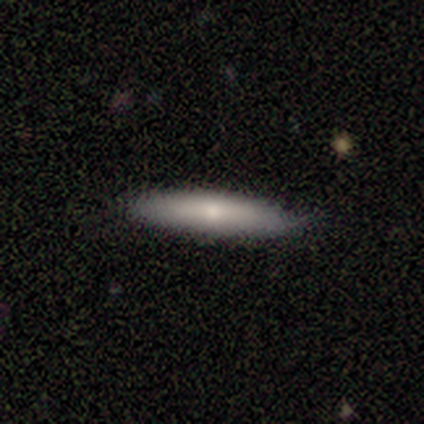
Morphology: type=smooth (56%); roundness=cigar-shaped (60%); merging=none (50%, tied with minor disturbance).